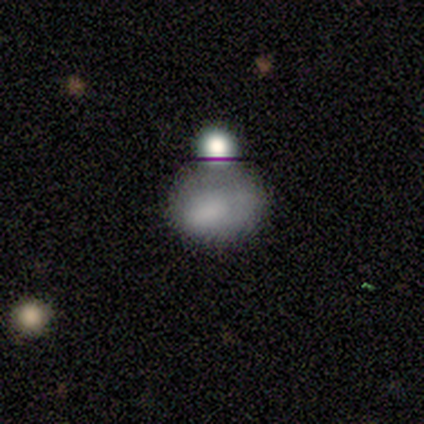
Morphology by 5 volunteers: Smooth or featured? star or artifact (100%)